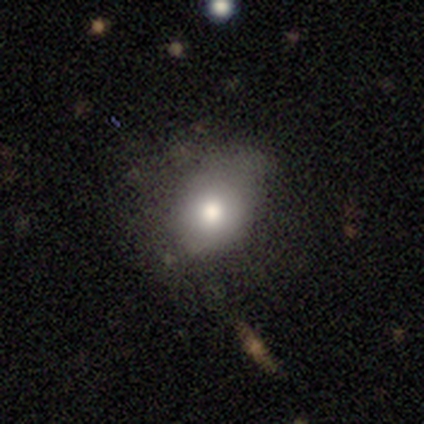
Smooth or featured: smooth — 80% (featured or disk — 20%)
How rounded: round — 75% (in between — 25%)
Merging: minor disturbance — 60% (none — 40%)